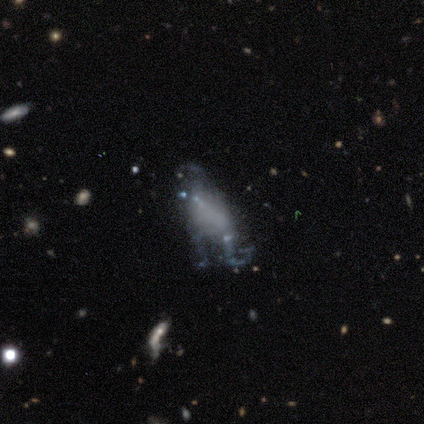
Q: Smooth or featured?
A: featured or disk (100%)
Q: Edge-on disk?
A: no (100%)
Q: Bar?
A: no (60%); runner-up: weak (40%)
Q: Spiral arms?
A: no (100%)
Q: Bulge size?
A: none (100%)
Q: Merging?
A: major disturbance (60%); runner-up: none (40%)